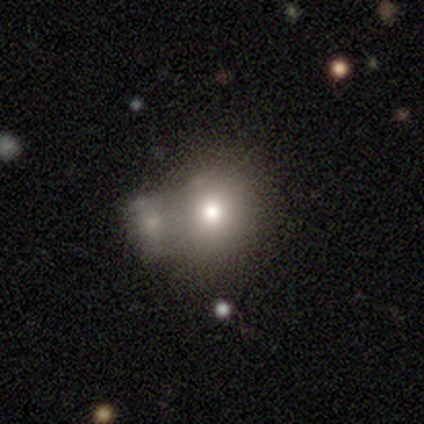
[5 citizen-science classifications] Smooth or featured? smooth (80%)
How rounded? round (75%)
Merging? merger (75%)